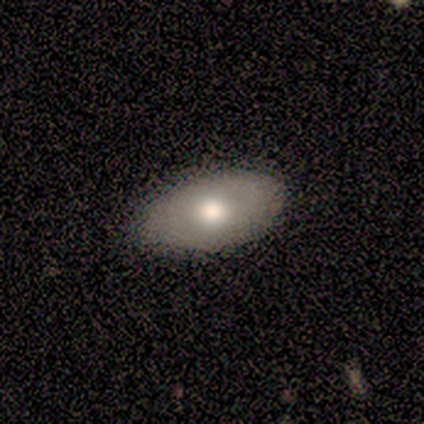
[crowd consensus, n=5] featured or disk 60%, smooth 40%, star or artifact 0%. Down the decision tree: edge-on disk — yes (67%); edge-on bulge — rounded (100%); merging — none (60%).